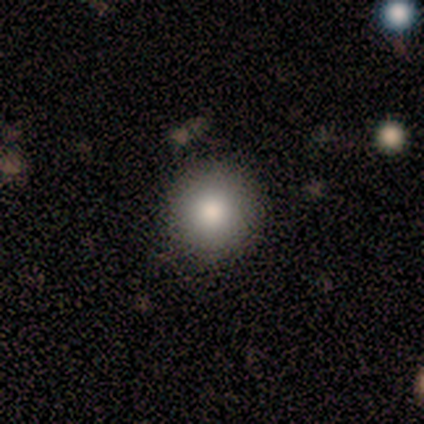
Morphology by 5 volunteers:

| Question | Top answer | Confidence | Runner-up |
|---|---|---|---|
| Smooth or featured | smooth | 100% | — |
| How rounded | round | 100% | — |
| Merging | none | 80% | minor disturbance (20%) |